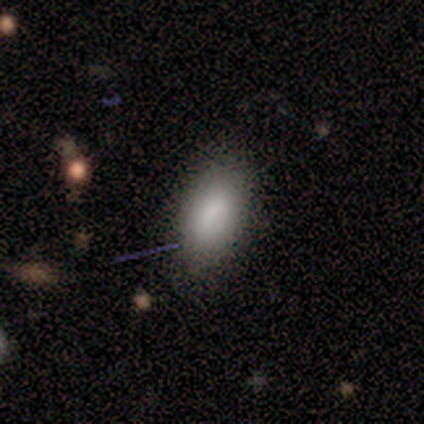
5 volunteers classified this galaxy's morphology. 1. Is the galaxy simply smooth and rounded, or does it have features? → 100% smooth, 0% featured or disk, 0% star or artifact.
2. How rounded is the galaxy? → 100% in between, 0% round, 0% cigar-shaped.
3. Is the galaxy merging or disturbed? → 80% none, 20% minor disturbance, 0% major disturbance, 0% merger.